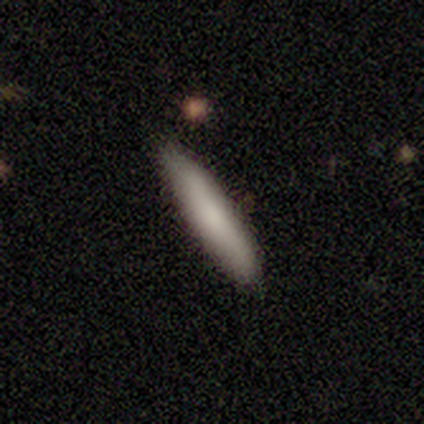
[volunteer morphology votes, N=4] Smooth or featured? smooth (100%)
How rounded? cigar-shaped (100%)
Merging? none (100%)